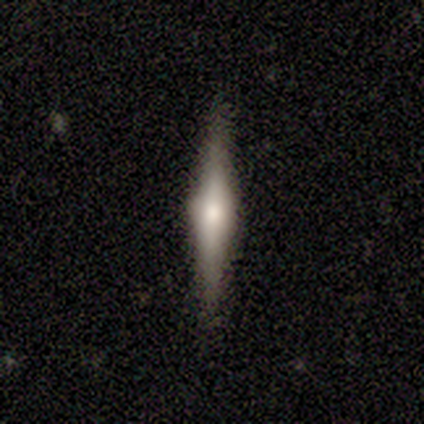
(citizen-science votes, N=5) featured or disk 60%, smooth 20%, star or artifact 20%. Down the decision tree: edge-on disk — yes (100%); edge-on bulge — rounded (100%); merging — none (100%).